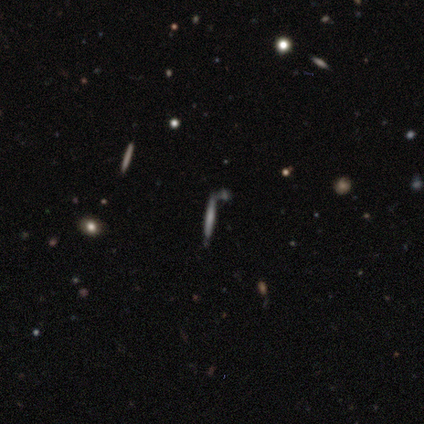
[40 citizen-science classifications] A featured or disk galaxy (42%) viewed edge-on (100%) with no central bulge (59%). Merging: none (45%).